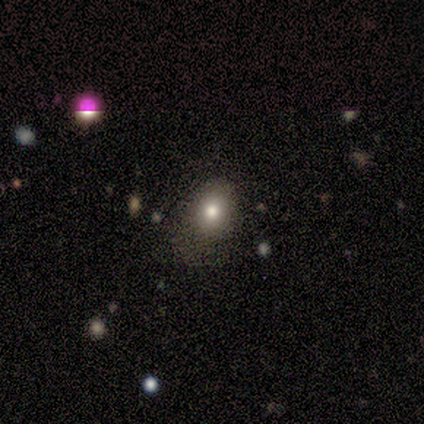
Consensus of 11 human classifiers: A smooth galaxy with no disk features (45%) that is in between round and cigar-shaped (100%).

Vote fractions:
- Smooth or featured? smooth: 45% / featured or disk: 36% / star or artifact: 18%
- How rounded? in between: 100% / round: 0% / cigar-shaped: 0%
- Merging? minor disturbance: 44% / none: 33% / major disturbance: 22% / merger: 0%